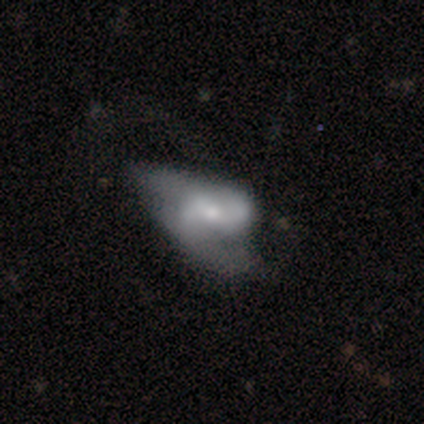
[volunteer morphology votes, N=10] This is possibly a featured or disk galaxy (50%). It is clearly not viewed edge-on (100%). Bar: marginally weak (40%, tied with no). Spiral arm pattern: likely yes (60%). Spiral arm count: clearly 2 (100%). Spiral winding: likely loose (67%). Central bulge: marginally small (40%). Merging: likely major disturbance (78%).